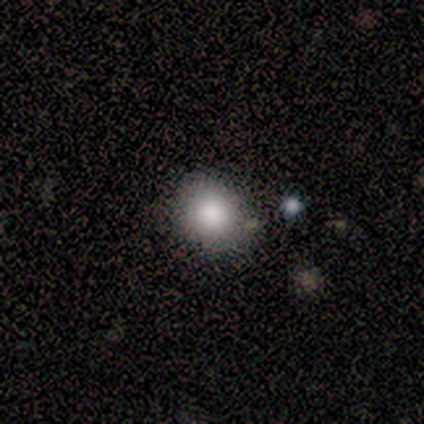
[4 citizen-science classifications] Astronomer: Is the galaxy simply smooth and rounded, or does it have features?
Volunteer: smooth — 75%.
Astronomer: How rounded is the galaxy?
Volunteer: round — 100%.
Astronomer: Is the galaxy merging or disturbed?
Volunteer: none — 75%.